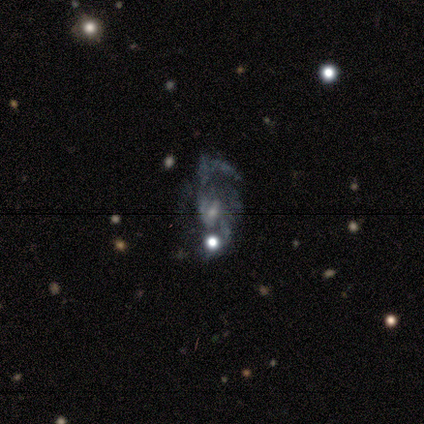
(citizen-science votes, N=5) Volunteers were most divided on "merging": none: 50%, minor disturbance: 25%, major disturbance: 25%, merger: 0%. More confident: edge-on disk — no (100%); spiral arms — yes (100%); smooth or featured — featured or disk (80%); bar — weak (75%); spiral winding — loose (75%); spiral arm count — 2 (75%); bulge size — small (75%).